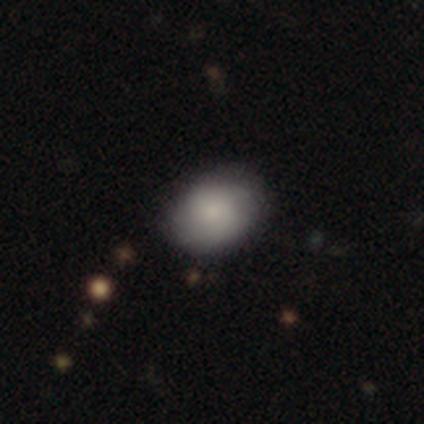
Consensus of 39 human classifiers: Smooth or featured? smooth (72%)
How rounded? in between (54%)
Merging? none (73%)